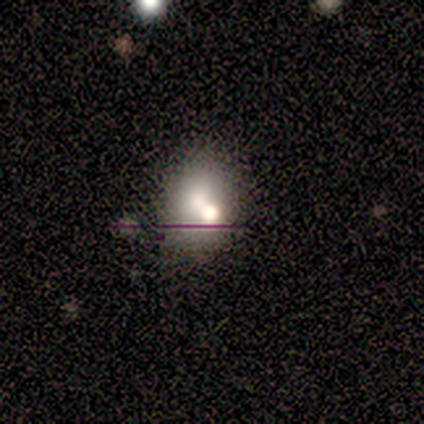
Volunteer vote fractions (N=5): Smooth or featured? 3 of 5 (60%) said smooth. How rounded? 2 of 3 (67%) said round. Merging? 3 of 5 (60%) said merger.